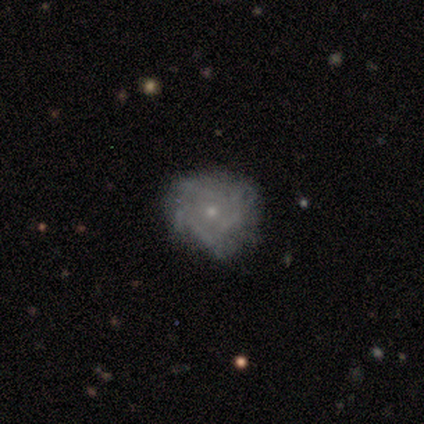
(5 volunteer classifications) Smooth or featured?
  - featured or disk: 80% *
  - smooth: 20%
  - star or artifact: 0%
Edge-on disk?
  - no: 100% *
  - yes: 0%
Bar?
  - no: 100% *
  - strong: 0%
  - weak: 0%
Spiral arms?
  - yes: 50% * (tied)
  - no: 50% * (tied)
Spiral winding?
  - tight: 100% *
  - medium: 0%
  - loose: 0%
Spiral arm count?
  - more than 4: 50% * (tied)
  - can't tell: 50% * (tied)
  - 1: 0%
  - 2: 0%
  - 3: 0%
  - 4: 0%
Bulge size?
  - small: 75% *
  - moderate: 25%
  - dominant: 0%
  - large: 0%
  - none: 0%
Merging?
  - none: 60% *
  - minor disturbance: 40%
  - major disturbance: 0%
  - merger: 0%